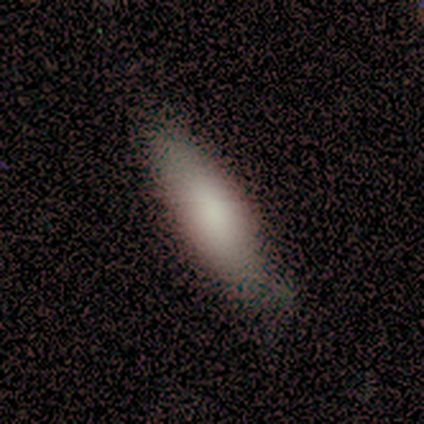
Smooth or featured?
  - smooth: 88% *
  - star or artifact: 8%
  - featured or disk: 5%
How rounded?
  - cigar-shaped: 54% *
  - in between: 46%
  - round: 0%
Merging?
  - none: 81% *
  - minor disturbance: 11%
  - major disturbance: 5%
  - merger: 3%